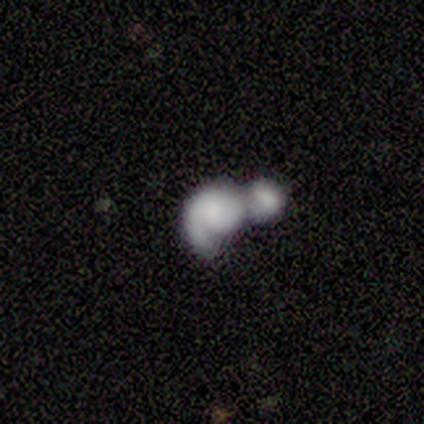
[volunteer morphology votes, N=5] This is marginally a smooth galaxy (40%, tied with featured or disk). How rounded: possibly round (50%, tied with in between). Merging: clearly merger (100%).